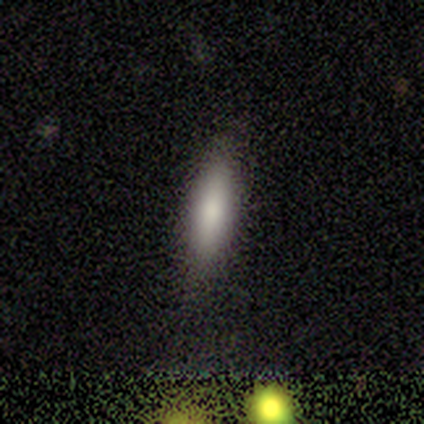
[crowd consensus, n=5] This is likely a smooth galaxy (60%). How rounded: likely cigar-shaped (67%). Merging: likely minor disturbance (75%).